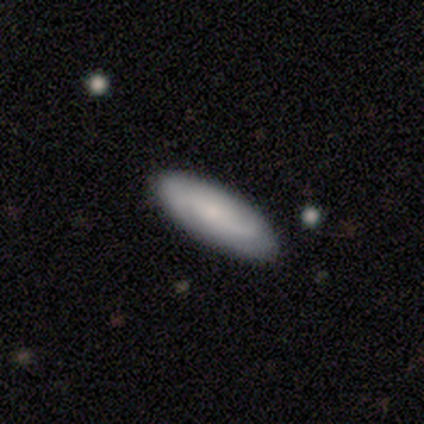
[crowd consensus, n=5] This appears to be a featured or disk galaxy (60%) with a weak bar (67%), 2 (100%) loose (100%) spiral arms (67%) and a small central bulge (100%). Merging: none (100%).